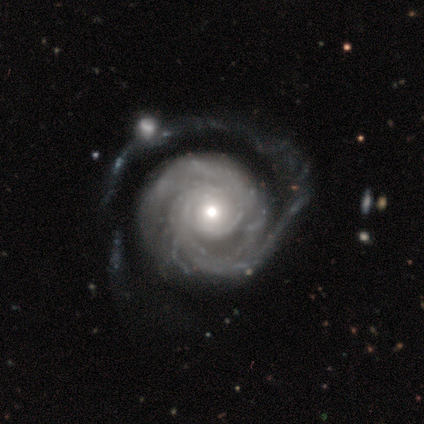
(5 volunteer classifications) featured or disk 100%, smooth 0%, star or artifact 0%. Down the decision tree: edge-on disk — no (100%); bar — no (100%); spiral arms — yes (100%); spiral arm count — 1 (40%, tied with can't tell); spiral winding — tight (40%, tied with medium); bulge size — moderate (60%); merging — none (60%).